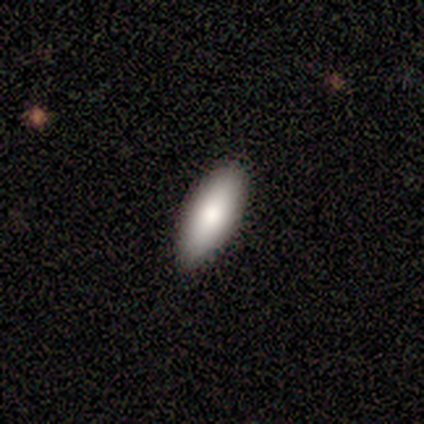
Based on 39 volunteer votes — Smooth or featured: smooth — 90% (featured or disk — 5%)
How rounded: in between — 63% (cigar-shaped — 37%)
Merging: none — 92% (minor disturbance — 5%)